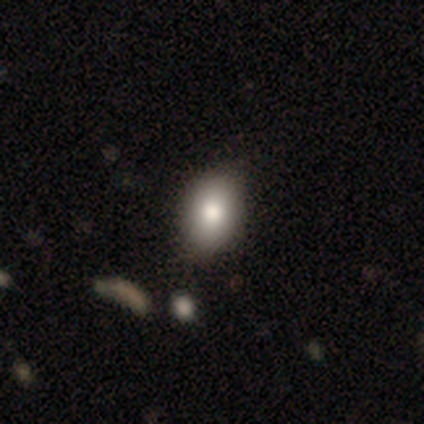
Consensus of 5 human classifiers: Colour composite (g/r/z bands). It shows a smooth galaxy with no disk features (80%) that is in between round and cigar-shaped (100%). Merging: none (100%).